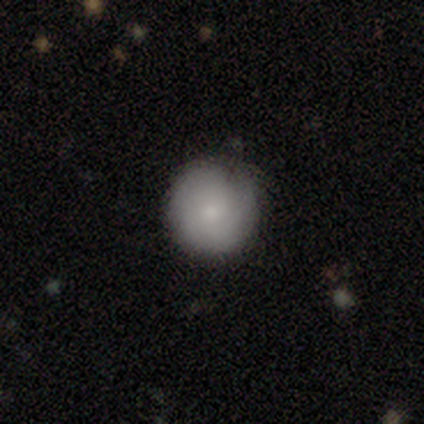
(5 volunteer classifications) Smooth or featured? smooth (60%)
How rounded? round (100%)
Merging? none (75%)